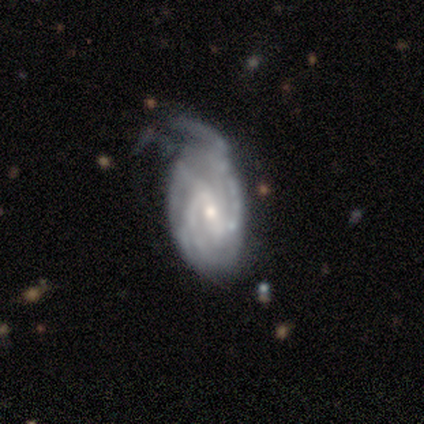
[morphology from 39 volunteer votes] Overall: featured or disk (92%). Edge-on disk: no (94%). Bar: weak (62%; strong 24%). Spiral arms: yes (94%). Spiral arm count: 2 (59%). Spiral winding: tight (47%; medium 41%). Bulge size: small (68%). Merging: none (45%; minor disturbance 34%).